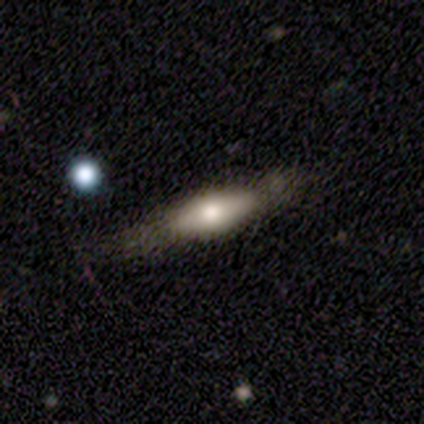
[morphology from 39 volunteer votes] smooth 46%, featured or disk 44%, star or artifact 10%. Down the decision tree: how rounded — cigar-shaped (78%); merging — none (63%).